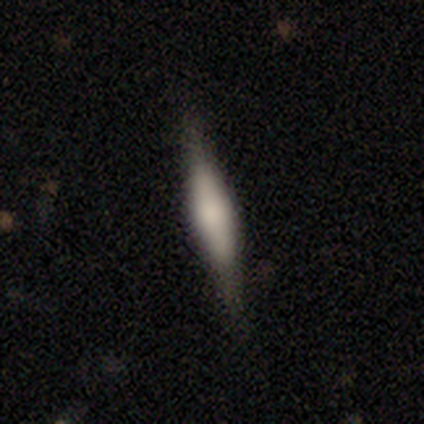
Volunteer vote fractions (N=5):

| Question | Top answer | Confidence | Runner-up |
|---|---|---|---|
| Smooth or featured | smooth | 60% | featured or disk (40%) |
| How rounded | cigar-shaped | 67% | in between (33%) |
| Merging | none | 100% | — |